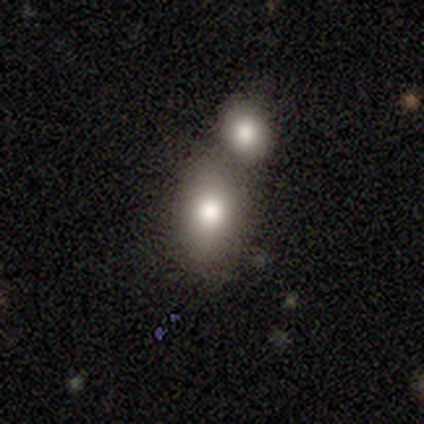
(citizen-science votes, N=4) Smooth or featured? smooth (75%)
How rounded? in between (67%)
Merging? merger (100%)